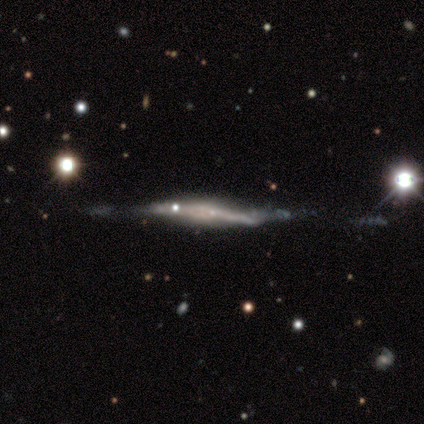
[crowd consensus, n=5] Volunteers were most divided on "merging": none: 60%, minor disturbance: 20%, major disturbance: 20%, merger: 0%. More confident: edge-on disk — yes (100%); edge-on bulge — none (100%); smooth or featured — featured or disk (80%).